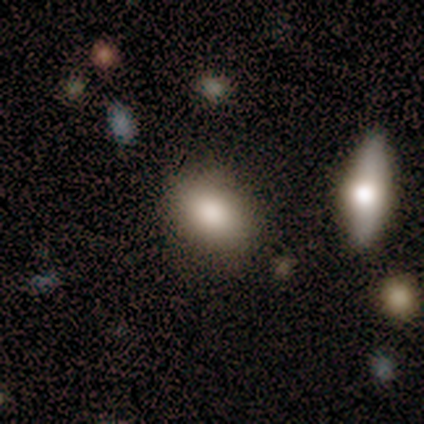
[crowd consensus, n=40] Smooth or featured? smooth (70%)
How rounded? in between (79%)
Merging? none (83%)